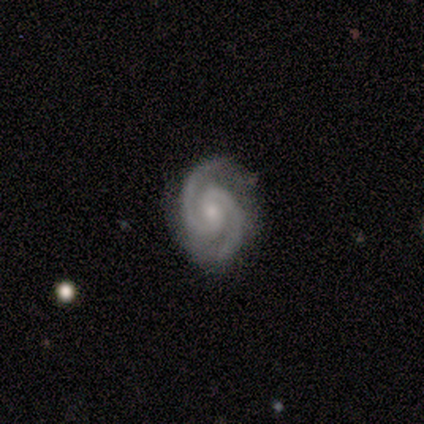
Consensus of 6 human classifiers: Overall: featured or disk (100%). Edge-on disk: no (100%). Bar: no (50%; strong 33%). Spiral arms: yes (100%). Spiral arm count: 2 (100%). Spiral winding: tight (50%, tied with medium). Bulge size: small (67%; moderate 33%). Merging: none (50%, tied with minor disturbance).